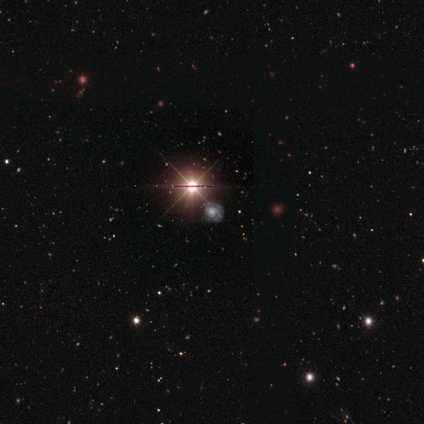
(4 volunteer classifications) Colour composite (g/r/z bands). It shows a featured or disk galaxy (50%, tied with star or artifact) with no bar (100%), 2 (100%) tight (100%) spiral arms (50%, tied with no) and a large central bulge (50%, tied with small). Merging: none (100%).